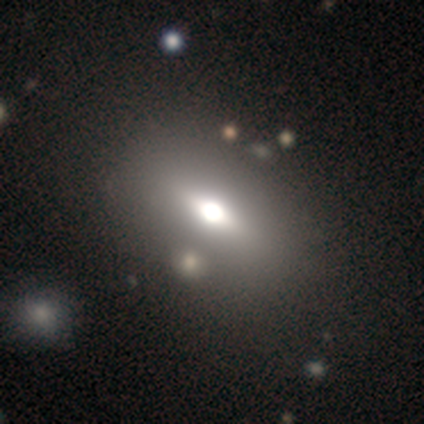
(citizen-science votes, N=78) smooth_or_featured: smooth (p=0.58) [alt: featured or disk p=0.33]
how_rounded: in between (p=0.84) [alt: round p=0.11]
merging: none (p=0.37) [alt: merger p=0.13]